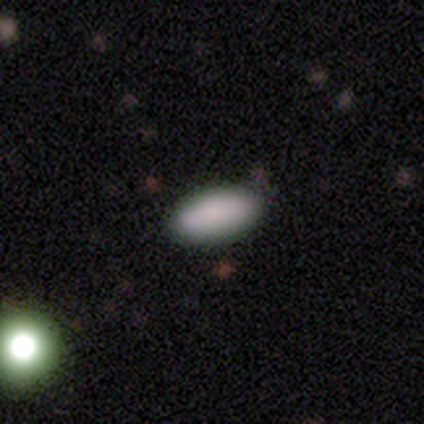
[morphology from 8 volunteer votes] Smooth or featured? 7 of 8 (88%) said smooth. How rounded? 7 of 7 (100%) said in between. Merging? 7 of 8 (88%) said none.